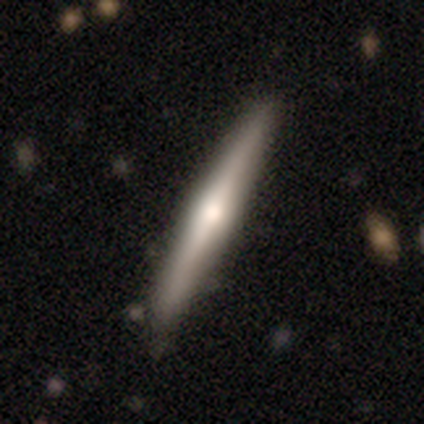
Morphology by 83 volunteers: This appears to be a featured or disk galaxy (64%) viewed edge-on (92%) with a rounded central bulge (90%). Merging: none (87%).